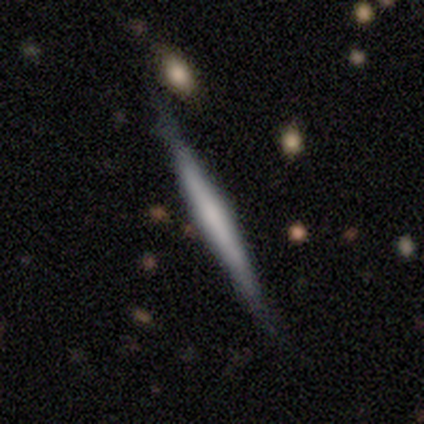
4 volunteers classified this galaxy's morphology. Smooth or featured? featured or disk (75%)
Edge-on disk? yes (100%)
Edge-on bulge? rounded (67%)
Merging? minor disturbance (75%)